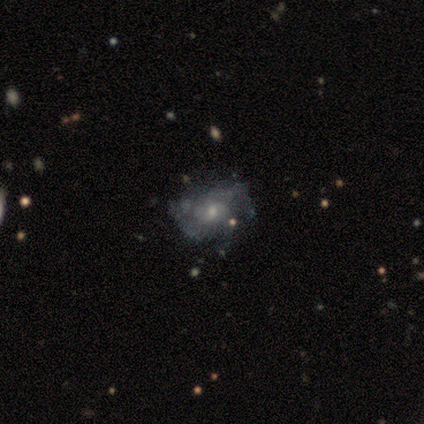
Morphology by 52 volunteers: This is likely a featured or disk galaxy (67%). It is clearly not viewed edge-on (100%). Bar: clearly no (83%). Spiral arm pattern: clearly yes (83%). Spiral arm count: marginally 3 (34%, tied with can't tell). Spiral winding: possibly medium (48%). Central bulge: possibly moderate (51%). Merging: likely none (61%).